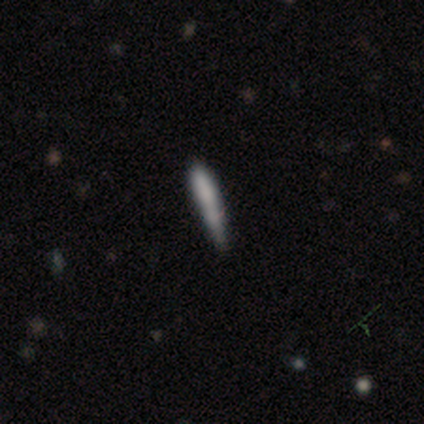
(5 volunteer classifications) Morphology: type=smooth (60%); roundness=cigar-shaped (67%); merging=minor disturbance (50%).